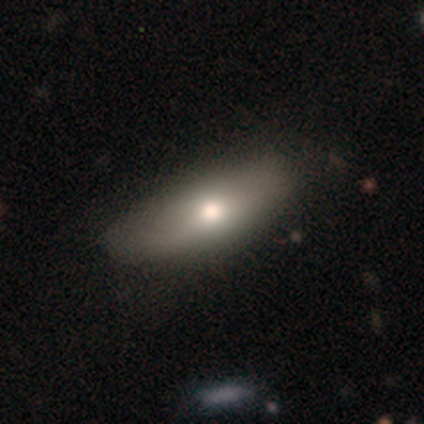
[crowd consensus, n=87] Volunteers were most divided on "how rounded": in between: 70%, cigar-shaped: 30%, round: 0%. More confident: merging — none (76%); smooth or featured — smooth (76%).